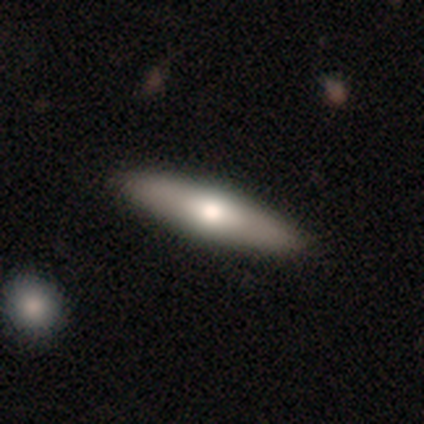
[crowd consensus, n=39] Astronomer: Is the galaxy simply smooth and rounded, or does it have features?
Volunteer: smooth — 54% (runner-up: featured or disk, 46%).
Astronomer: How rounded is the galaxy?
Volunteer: cigar-shaped — 52% (runner-up: in between, 48%).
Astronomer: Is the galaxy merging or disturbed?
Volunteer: none — 67%.